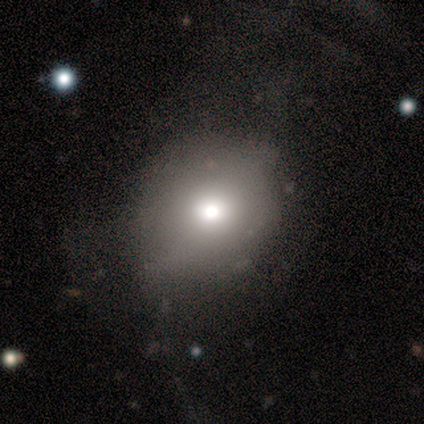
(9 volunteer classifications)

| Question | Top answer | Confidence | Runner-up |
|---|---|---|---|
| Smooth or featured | featured or disk | 56% | smooth (44%) |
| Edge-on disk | no | 100% | — |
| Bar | no | 100% | — |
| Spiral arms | no | 100% | — |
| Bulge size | moderate | 60% | dominant (20%) |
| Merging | none | 56% | minor disturbance (33%) |